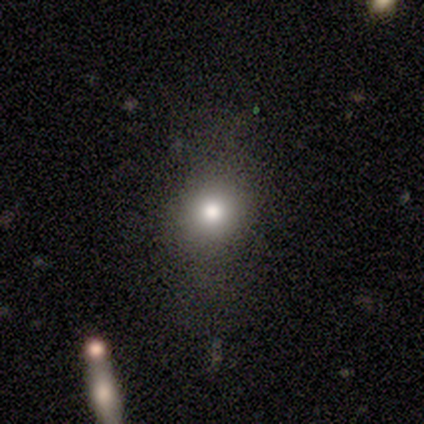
smooth_or_featured: smooth (p=0.40) [tied with: star or artifact p=0.40]
how_rounded: round (p=0.50) [tied with: in between p=0.50]
merging: none (p=1.00)